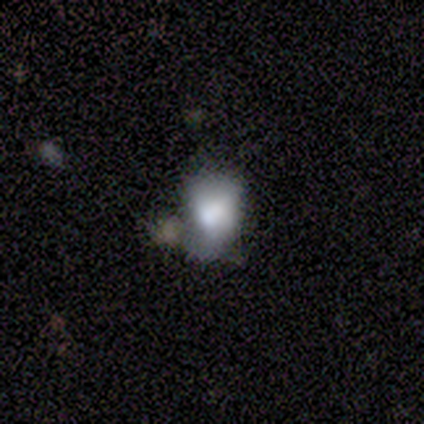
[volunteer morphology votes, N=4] Volunteers were most divided on "smooth or featured": star or artifact: 50%, smooth: 25%, featured or disk: 25%.